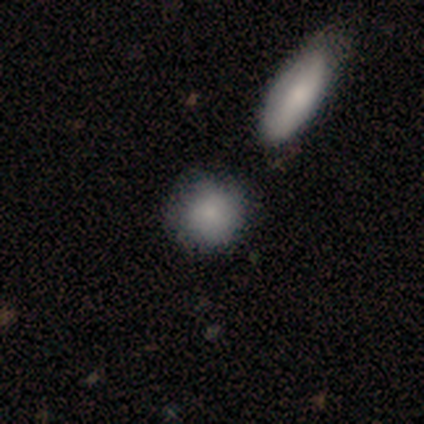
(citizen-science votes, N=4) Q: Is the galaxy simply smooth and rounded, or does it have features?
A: smooth — 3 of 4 (75%).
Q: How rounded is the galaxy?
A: round — 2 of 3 (67%).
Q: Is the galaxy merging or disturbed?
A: none — 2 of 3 (67%).